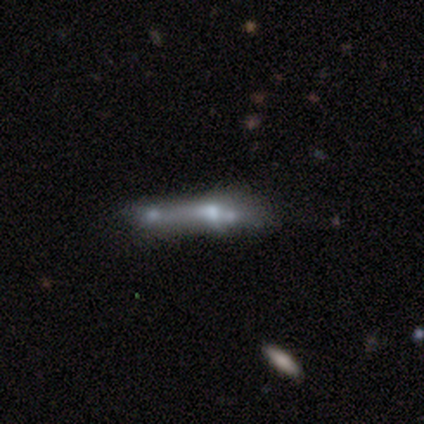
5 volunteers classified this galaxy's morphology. Overall: smooth (60%; featured or disk 20%). How rounded: in between (67%; cigar-shaped 33%). Merging: merger (50%; minor disturbance 25%).